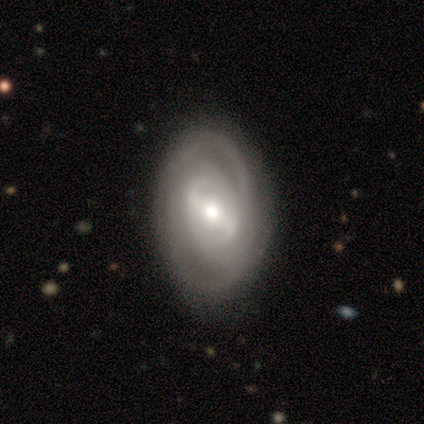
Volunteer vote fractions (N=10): smooth_or_featured: featured or disk (p=0.90) [alt: smooth p=0.10]
disk_edge_on: no (p=1.00)
bar: weak (p=0.67) [alt: no p=0.22]
has_spiral_arms: no (p=0.56) [alt: yes p=0.44]
bulge_size: moderate (p=0.56) [alt: small p=0.33]
merging: none (p=0.90) [alt: minor disturbance p=0.10]